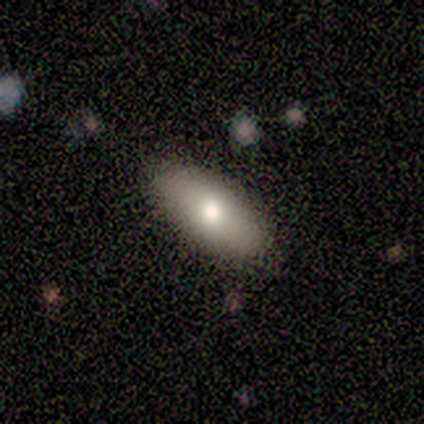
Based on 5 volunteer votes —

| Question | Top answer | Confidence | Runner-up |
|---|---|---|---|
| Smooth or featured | smooth | 100% | — |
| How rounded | in between | 80% | cigar-shaped (20%) |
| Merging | none | 100% | — |